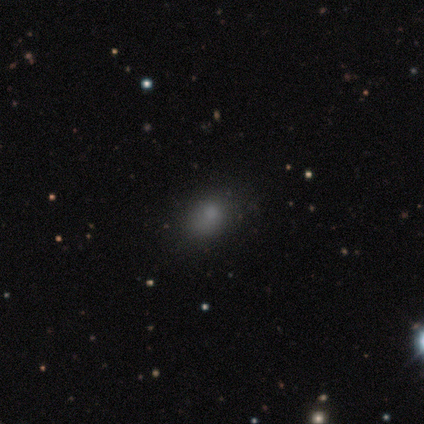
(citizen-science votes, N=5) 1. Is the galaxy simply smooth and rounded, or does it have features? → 100% smooth, 0% featured or disk, 0% star or artifact.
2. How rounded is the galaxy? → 60% in between, 40% round, 0% cigar-shaped.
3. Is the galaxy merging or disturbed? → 40% none (tied), 40% minor disturbance (tied), 20% major disturbance, 0% merger.